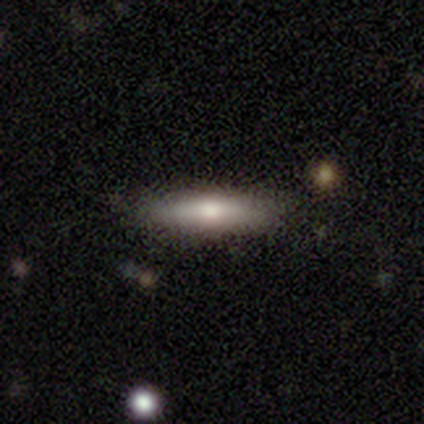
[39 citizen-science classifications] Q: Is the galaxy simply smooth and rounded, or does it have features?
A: smooth — 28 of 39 (72%).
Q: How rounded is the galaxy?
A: cigar-shaped — 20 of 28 (71%).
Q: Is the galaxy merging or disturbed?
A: none — 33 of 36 (92%).